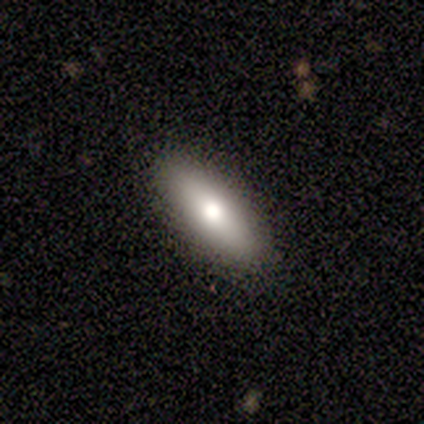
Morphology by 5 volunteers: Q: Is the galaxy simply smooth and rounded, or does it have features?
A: smooth — 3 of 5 (60%).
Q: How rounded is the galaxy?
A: in between — 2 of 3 (67%).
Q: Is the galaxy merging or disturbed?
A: none — 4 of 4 (100%).